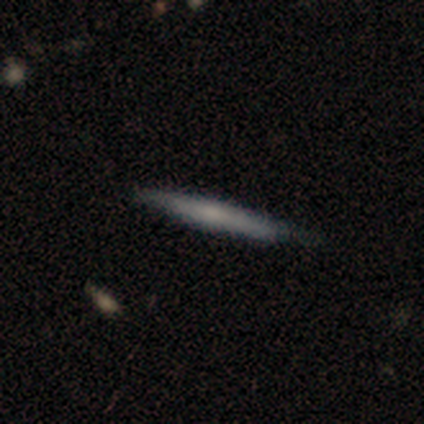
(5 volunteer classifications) Q: Smooth or featured?
A: featured or disk (60%); runner-up: smooth (40%)
Q: Edge-on disk?
A: yes (100%)
Q: Edge-on bulge?
A: rounded (67%); runner-up: none (33%)
Q: Merging?
A: none (60%); runner-up: minor disturbance (40%)